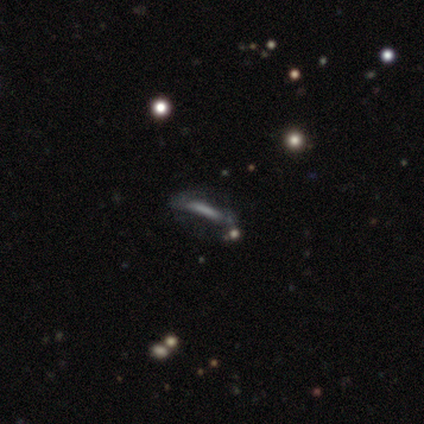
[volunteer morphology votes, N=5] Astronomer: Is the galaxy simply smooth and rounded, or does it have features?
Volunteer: smooth — 40%, tied with featured or disk at 40%.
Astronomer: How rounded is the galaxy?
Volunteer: in between — 50%, tied with cigar-shaped at 50%.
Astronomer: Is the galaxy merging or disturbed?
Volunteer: none — 50%, tied with major disturbance at 50%.